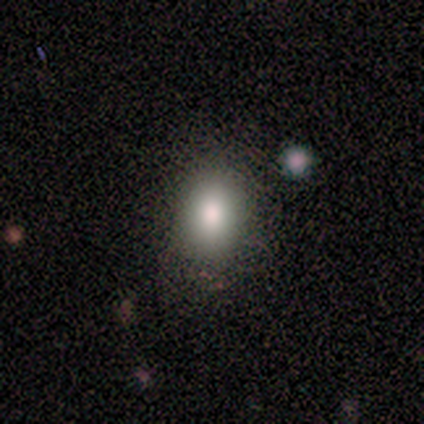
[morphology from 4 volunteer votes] Volunteers were most divided on "smooth or featured" (2-way tie): smooth: 50%, featured or disk: 50%, star or artifact: 0%. More confident: how rounded — round (100%); merging — none (100%).